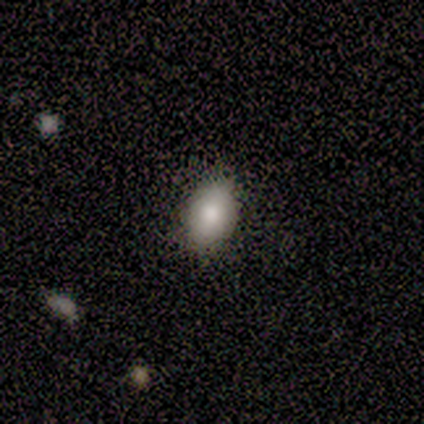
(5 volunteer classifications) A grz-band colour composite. It shows a smooth galaxy with no disk features (100%) that is in between round and cigar-shaped (80%). Merging: none (80%).